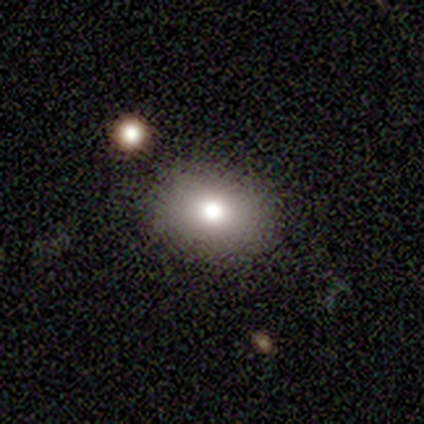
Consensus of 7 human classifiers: smooth-or-featured: smooth: 71% | featured or disk: 29% | star or artifact: 0%
  how-rounded: in between: 80% | round: 20% | cigar-shaped: 0%
  merging: none: 86% | merger: 14% | minor disturbance: 0% | major disturbance: 0%